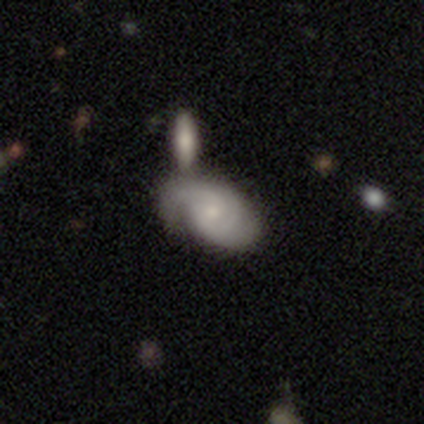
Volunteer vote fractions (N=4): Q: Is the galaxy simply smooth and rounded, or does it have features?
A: featured or disk — 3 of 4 (75%).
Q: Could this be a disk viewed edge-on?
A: no — 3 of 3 (100%).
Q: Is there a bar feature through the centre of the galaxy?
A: no — 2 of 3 (67%).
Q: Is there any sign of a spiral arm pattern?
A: yes — 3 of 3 (100%).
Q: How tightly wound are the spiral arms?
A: medium — 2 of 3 (67%).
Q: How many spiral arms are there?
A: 2 — 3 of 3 (100%).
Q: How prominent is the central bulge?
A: small — 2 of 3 (67%).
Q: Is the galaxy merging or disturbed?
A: none — 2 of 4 (50%).